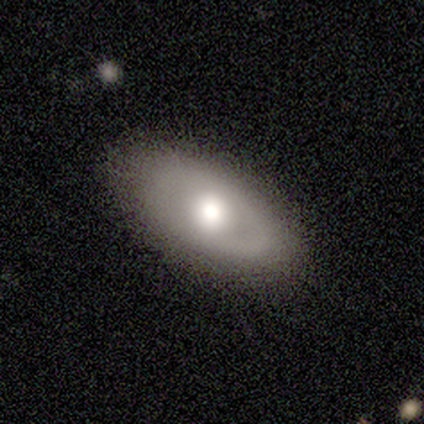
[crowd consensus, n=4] This is likely a smooth galaxy (75%). How rounded: clearly in between (100%). Merging: clearly none (100%).